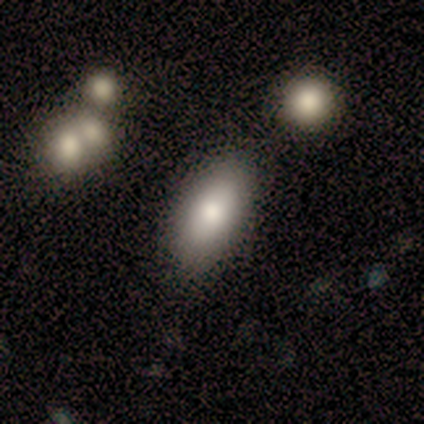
smooth 67%, star or artifact 33%, featured or disk 0%. Down the decision tree: how rounded — in between (100%); merging — none (75%).